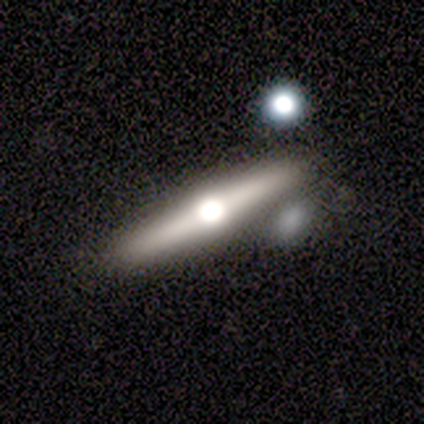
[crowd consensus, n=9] Volunteers were most divided on "smooth or featured": featured or disk: 56%, smooth: 33%, star or artifact: 11%. More confident: edge-on disk — yes (100%); edge-on bulge — rounded (100%); merging — none (75%).